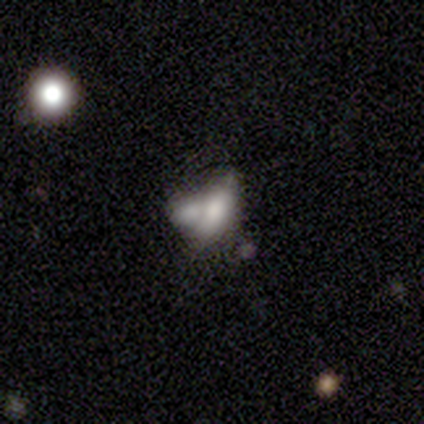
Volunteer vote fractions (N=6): Smooth or featured?
  - featured or disk: 83% *
  - smooth: 17%
  - star or artifact: 0%
Edge-on disk?
  - no: 80% *
  - yes: 20%
Bar?
  - no: 100% *
  - strong: 0%
  - weak: 0%
Spiral arms?
  - no: 100% *
  - yes: 0%
Bulge size?
  - moderate: 50% *
  - small: 25%
  - none: 25%
  - dominant: 0%
  - large: 0%
Merging?
  - merger: 50% *
  - none: 33%
  - major disturbance: 17%
  - minor disturbance: 0%